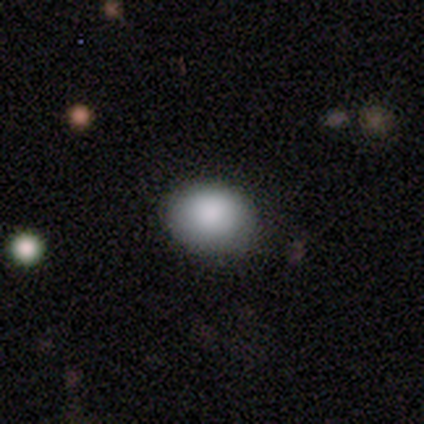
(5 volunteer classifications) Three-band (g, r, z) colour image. It shows a smooth galaxy with no disk features (100%) that is round (100%). Merging: none (80%).